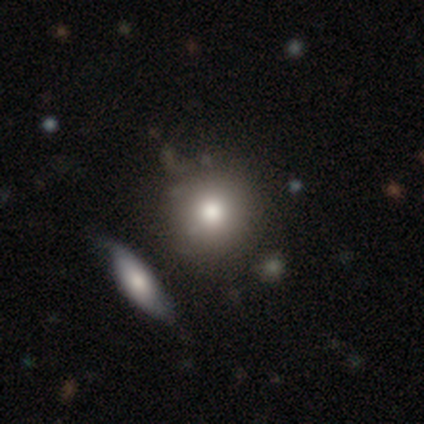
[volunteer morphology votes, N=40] smooth-or-featured: smooth: 75% | featured or disk: 18% | star or artifact: 8%
  how-rounded: round: 93% | in between: 7% | cigar-shaped: 0%
  merging: none: 62% | merger: 19% | minor disturbance: 5% | major disturbance: 0%